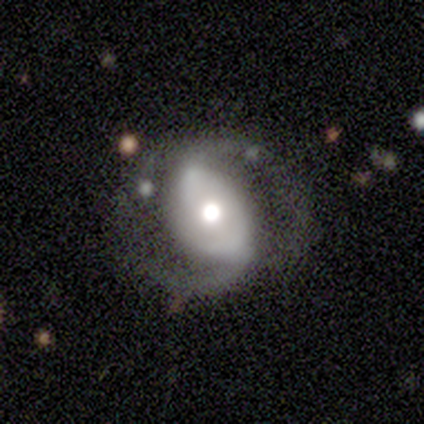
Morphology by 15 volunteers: Smooth or featured?
  - featured or disk: 80% *
  - star or artifact: 13%
  - smooth: 7%
Edge-on disk?
  - no: 100% *
  - yes: 0%
Bar?
  - strong: 42% *
  - no: 33%
  - weak: 25%
Spiral arms?
  - yes: 83% *
  - no: 17%
Spiral winding?
  - medium: 40% *
  - tight: 30%
  - loose: 30%
Spiral arm count?
  - 2: 90% *
  - can't tell: 10%
  - 1: 0%
  - 3: 0%
  - 4: 0%
  - more than 4: 0%
Bulge size?
  - moderate: 50% *
  - large: 33%
  - dominant: 8%
  - small: 8%
  - none: 0%
Merging?
  - none: 77% *
  - major disturbance: 15%
  - minor disturbance: 8%
  - merger: 0%